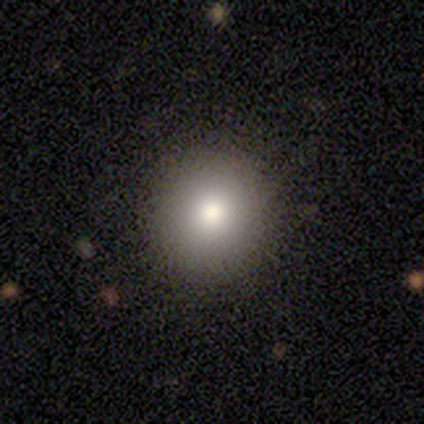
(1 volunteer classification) This is clearly a smooth galaxy (100%). How rounded: clearly round (100%). Merging: clearly none (100%).